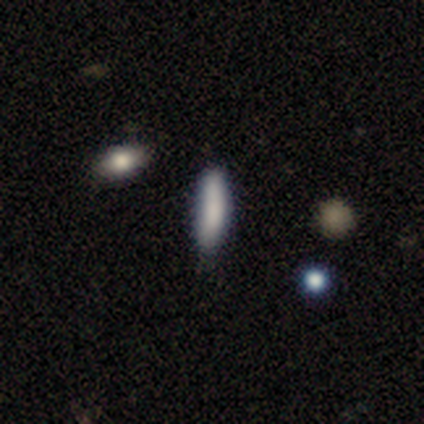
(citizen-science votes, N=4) Smooth or featured? smooth (100%)
How rounded? in between (50%, tied with cigar-shaped)
Merging? none (50%, tied with minor disturbance)